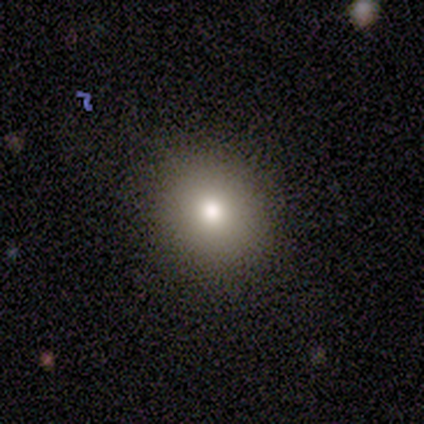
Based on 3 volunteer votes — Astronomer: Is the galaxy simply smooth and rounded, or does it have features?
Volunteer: smooth — 100%.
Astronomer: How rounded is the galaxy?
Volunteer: in between — 67%.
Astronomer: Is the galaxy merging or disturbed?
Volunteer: none — 100%.